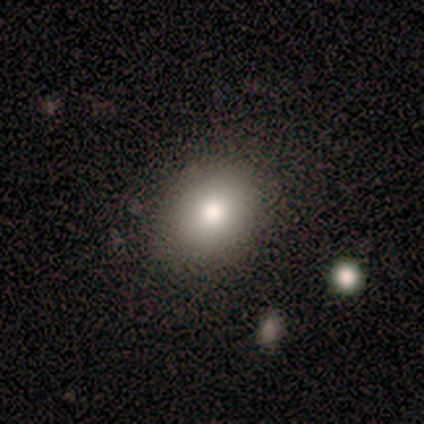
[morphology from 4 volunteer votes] type=smooth (100%); roundness=in between (75%); merging=none (100%).